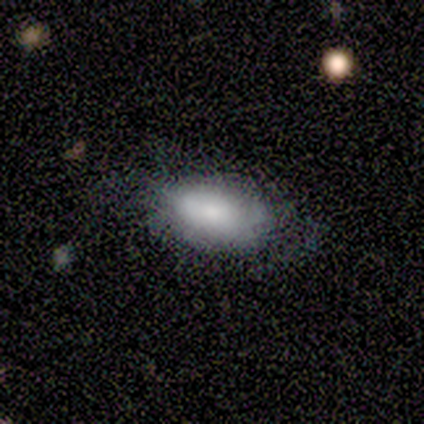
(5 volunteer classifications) Smooth or featured?
  - smooth: 60% *
  - featured or disk: 40%
  - star or artifact: 0%
How rounded?
  - in between: 100% *
  - round: 0%
  - cigar-shaped: 0%
Merging?
  - minor disturbance: 60% *
  - none: 20%
  - major disturbance: 20%
  - merger: 0%